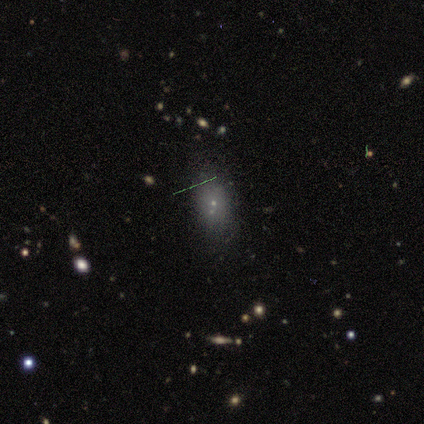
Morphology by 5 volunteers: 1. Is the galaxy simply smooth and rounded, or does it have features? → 100% smooth, 0% featured or disk, 0% star or artifact.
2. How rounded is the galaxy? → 80% in between, 20% round, 0% cigar-shaped.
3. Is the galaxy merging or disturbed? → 60% none, 20% minor disturbance, 20% merger, 0% major disturbance.